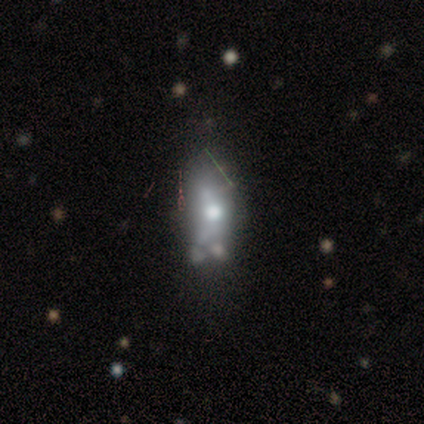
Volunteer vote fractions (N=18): A featured or disk galaxy (50%) with no bar (57%), no spiral arms (100%) and a moderate central bulge (86%).

Vote fractions:
- Smooth or featured? featured or disk: 50% / smooth: 33% / star or artifact: 17%
- Edge-on disk? no: 78% / yes: 22%
- Bar? no: 57% / weak: 29% / strong: 14%
- Spiral arms? no: 100% / yes: 0%
- Bulge size? moderate: 86% / none: 14% / dominant: 0% / large: 0% / small: 0%
- Merging? none: 53% / minor disturbance: 20% / major disturbance: 13% / merger: 13%